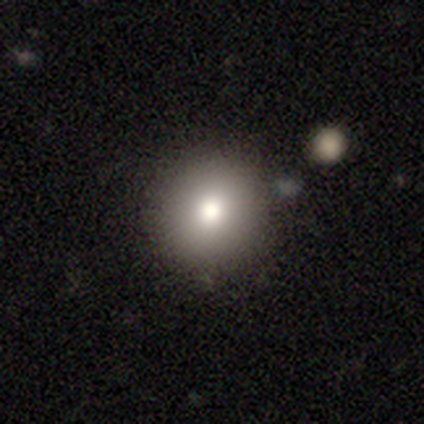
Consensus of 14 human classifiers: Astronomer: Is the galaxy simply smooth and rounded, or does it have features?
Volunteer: smooth — 71%.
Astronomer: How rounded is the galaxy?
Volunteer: round — 100%.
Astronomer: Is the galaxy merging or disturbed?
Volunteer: none — 92%.